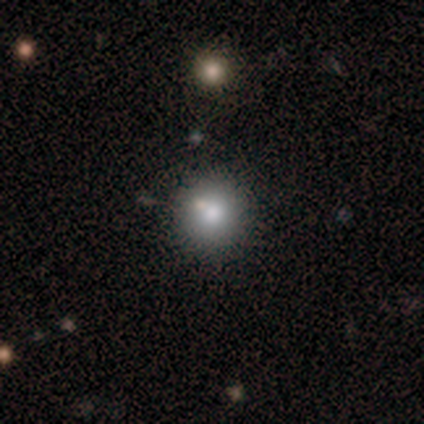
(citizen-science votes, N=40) A smooth galaxy with no disk features (80%) that is round (91%). Merging: none (72%).